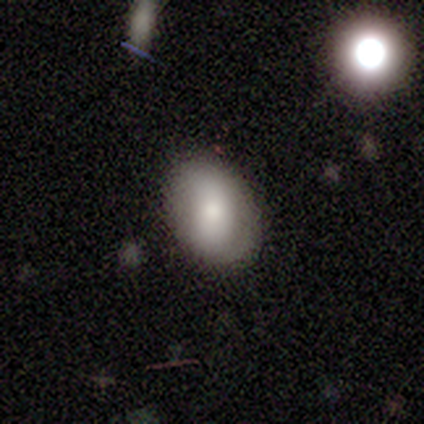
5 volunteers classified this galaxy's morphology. type=smooth (60%); roundness=in between (100%); merging=none (100%).